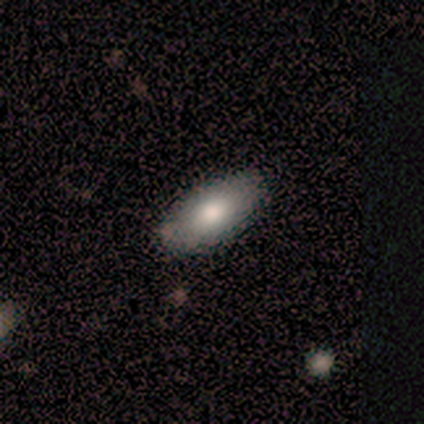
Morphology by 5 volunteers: Q: Smooth or featured?
A: smooth (60%); runner-up: featured or disk (40%)
Q: How rounded?
A: in between (100%)
Q: Merging?
A: none (60%); runner-up: minor disturbance (40%)